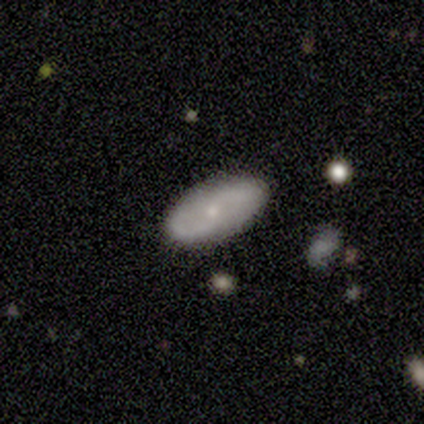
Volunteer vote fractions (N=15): A featured or disk galaxy (73%) with no bar (60%), 2 (86%) medium (57%) spiral arms (70%) and a small central bulge (80%).

Vote fractions:
- Smooth or featured? featured or disk: 73% / smooth: 20% / star or artifact: 7%
- Edge-on disk? no: 91% / yes: 9%
- Bar? no: 60% / weak: 40% / strong: 0%
- Spiral arms? yes: 70% / no: 30%
- Spiral winding? medium: 57% / loose: 29% / tight: 14%
- Spiral arm count? 2: 86% / can't tell: 14% / 1: 0% / 3: 0% / 4: 0% / more than 4: 0%
- Bulge size? small: 80% / large: 10% / moderate: 10% / dominant: 0% / none: 0%
- Merging? none: 93% / minor disturbance: 7% / major disturbance: 0% / merger: 0%